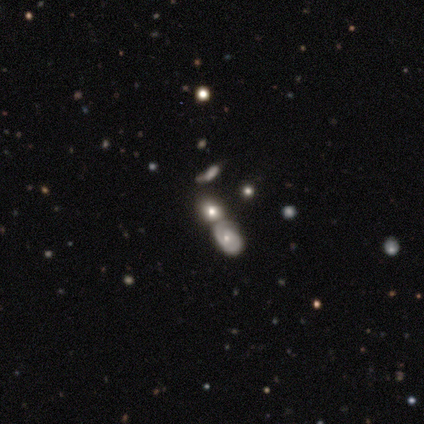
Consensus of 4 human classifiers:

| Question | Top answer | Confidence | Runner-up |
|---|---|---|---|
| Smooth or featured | smooth | 75% | featured or disk (25%) |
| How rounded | in between | 100% | — |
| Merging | none | 50% | tied: merger (50%) |